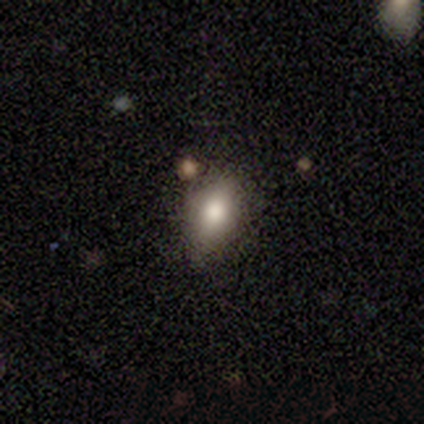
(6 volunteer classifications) smooth_or_featured: smooth (p=1.00)
how_rounded: in between (p=0.83) [alt: round p=0.17]
merging: none (p=1.00)